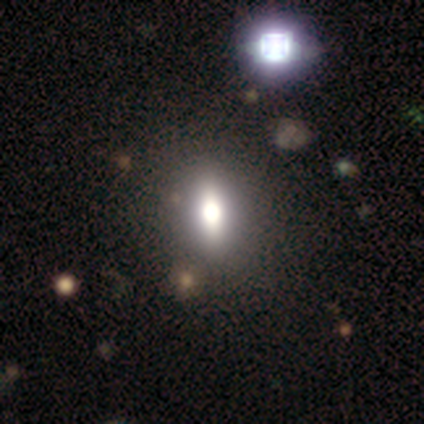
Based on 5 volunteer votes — featured or disk 60%, star or artifact 40%, smooth 0%. Down the decision tree: edge-on disk — no (67%); bar — strong (50%, tied with no); spiral arms — no (100%); bulge size — large (50%, tied with moderate); merging — none (67%).